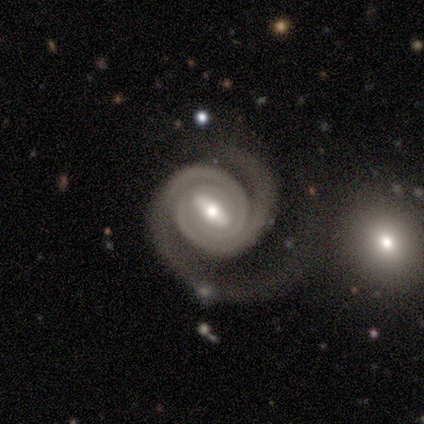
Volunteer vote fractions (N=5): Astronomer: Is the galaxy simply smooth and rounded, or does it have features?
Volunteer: featured or disk — 80%.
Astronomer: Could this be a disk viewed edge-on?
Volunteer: no — 100%.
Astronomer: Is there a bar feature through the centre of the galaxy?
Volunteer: strong — 50%.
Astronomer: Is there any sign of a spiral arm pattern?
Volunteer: yes — 100%.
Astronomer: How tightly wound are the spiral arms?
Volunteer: tight — 100%.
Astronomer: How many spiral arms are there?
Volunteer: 2 — 75%.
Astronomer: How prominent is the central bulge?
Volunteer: moderate — 50%.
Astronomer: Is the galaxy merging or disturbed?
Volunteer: major disturbance — 60%.